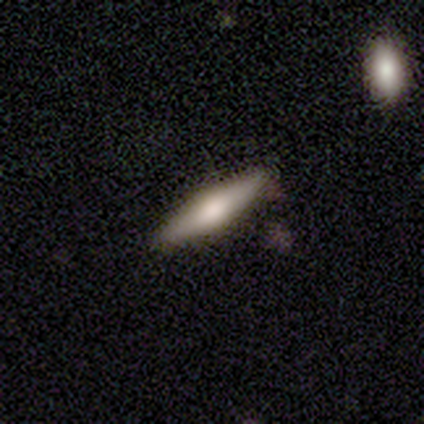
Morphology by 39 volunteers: Smooth or featured?
  - featured or disk: 54% *
  - smooth: 38%
  - star or artifact: 8%
Edge-on disk?
  - yes: 95% *
  - no: 5%
Edge-on bulge?
  - rounded: 95% *
  - boxy: 5%
  - none: 0%
Merging?
  - none: 97% *
  - minor disturbance: 3%
  - major disturbance: 0%
  - merger: 0%